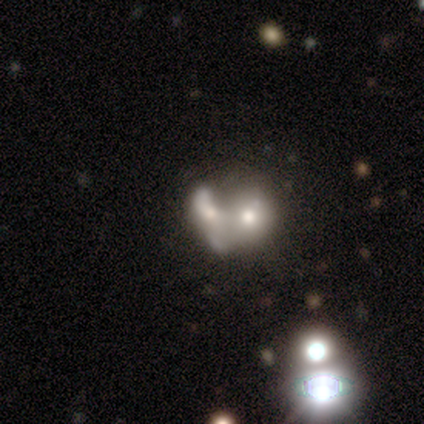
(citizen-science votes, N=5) Smooth or featured?
  - featured or disk: 60% *
  - smooth: 40%
  - star or artifact: 0%
Edge-on disk?
  - no: 100% *
  - yes: 0%
Bar?
  - no: 100% *
  - strong: 0%
  - weak: 0%
Spiral arms?
  - no: 100% *
  - yes: 0%
Bulge size?
  - small: 67% *
  - none: 33%
  - dominant: 0%
  - large: 0%
  - moderate: 0%
Merging?
  - merger: 100% *
  - none: 0%
  - minor disturbance: 0%
  - major disturbance: 0%